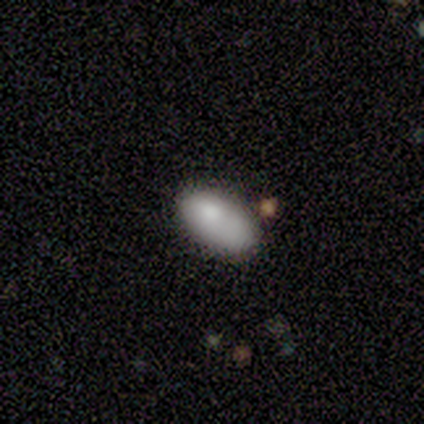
Smooth or featured: smooth — 100%
How rounded: in between — 100%
Merging: minor disturbance — 60% (none — 40%)